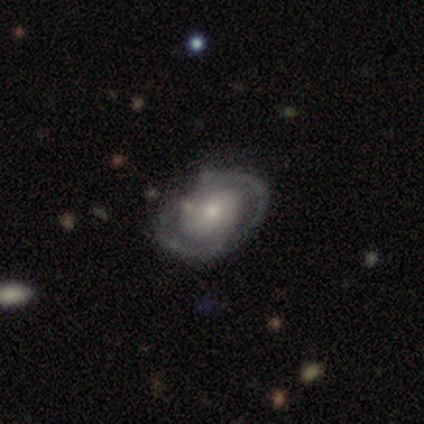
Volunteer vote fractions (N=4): smooth-or-featured: featured or disk: 100% | smooth: 0% | star or artifact: 0%
  disk-edge-on: no: 100% | yes: 0%
    bar: no: 50% | strong: 25% | weak: 25%
    has-spiral-arms: yes: 75% | no: 25%
      spiral-winding: medium: 67% | loose: 33% | tight: 0%
      spiral-arm-count: 2: 100% | 1: 0% | 3: 0% | 4: 0% | more than 4: 0% | can't tell: 0%
    bulge-size: small: 50% | dominant: 25% | moderate: 25% | large: 0% | none: 0%
  merging: none: 75% | minor disturbance: 25% | major disturbance: 0% | merger: 0%